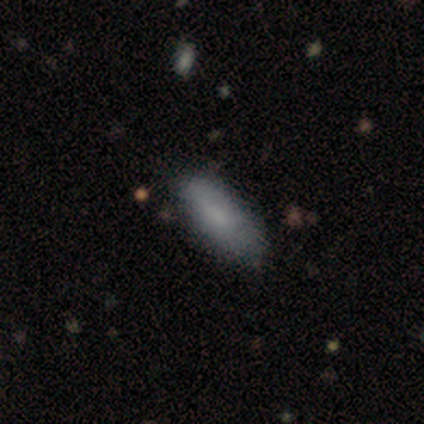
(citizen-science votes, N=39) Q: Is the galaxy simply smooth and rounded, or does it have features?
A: smooth — 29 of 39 (74%).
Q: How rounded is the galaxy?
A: in between — 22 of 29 (76%).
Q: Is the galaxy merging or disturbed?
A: none — 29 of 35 (83%).